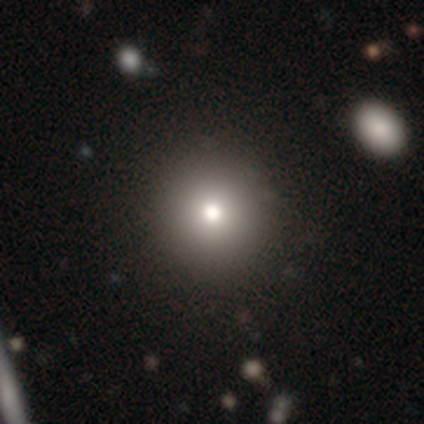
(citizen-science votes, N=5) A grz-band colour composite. It shows a smooth galaxy with no disk features (80%) that is round (100%). Merging: none (100%).